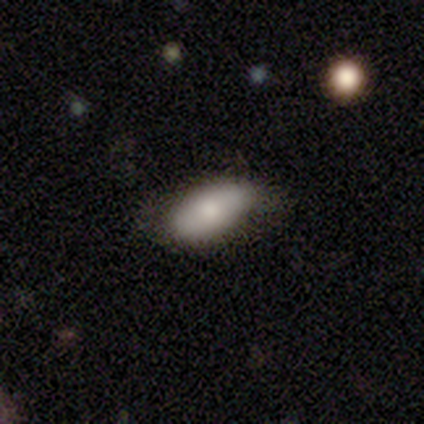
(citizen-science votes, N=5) This is clearly a smooth galaxy (80%). How rounded: likely in between (75%). Merging: clearly none (100%).